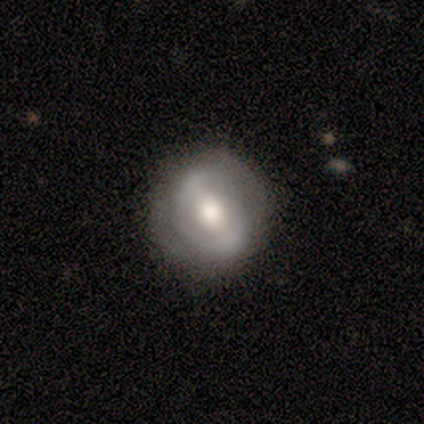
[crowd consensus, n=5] Smooth or featured? smooth (60%)
How rounded? round (100%)
Merging? none (100%)